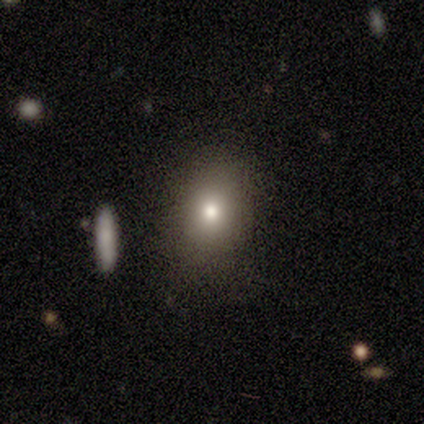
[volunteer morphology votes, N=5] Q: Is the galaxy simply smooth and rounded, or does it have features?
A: smooth — 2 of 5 (40%, tied with featured or disk).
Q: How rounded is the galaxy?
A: in between — 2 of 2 (100%).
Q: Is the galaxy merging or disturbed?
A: none — 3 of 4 (75%).